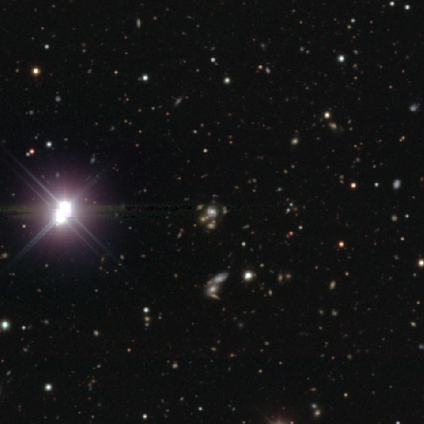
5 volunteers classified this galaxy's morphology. type=star or artifact (80%).